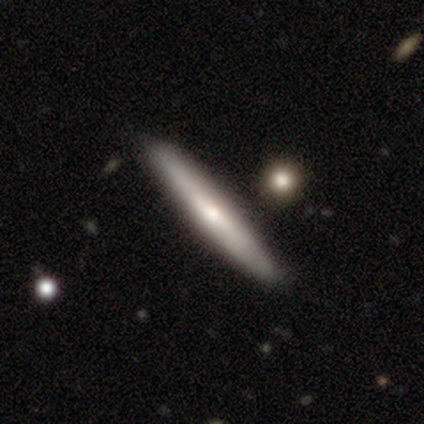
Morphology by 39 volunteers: A smooth galaxy with no disk features (51%) that is cigar-shaped (95%). Merging: none (86%).